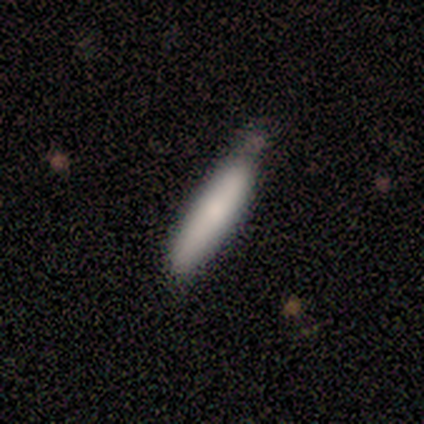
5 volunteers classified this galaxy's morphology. type=smooth (80%); roundness=cigar-shaped (100%); merging=none (80%).